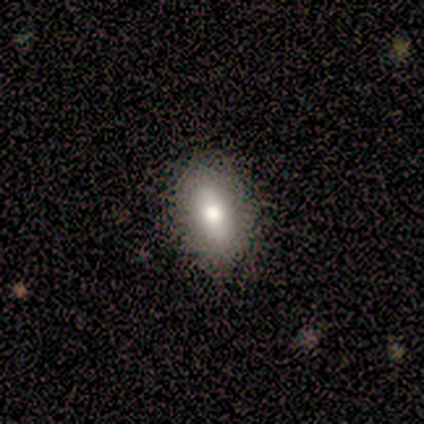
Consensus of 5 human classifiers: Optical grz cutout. It shows a smooth galaxy with no disk features (80%) that is in between round and cigar-shaped (100%). Merging: none (80%).